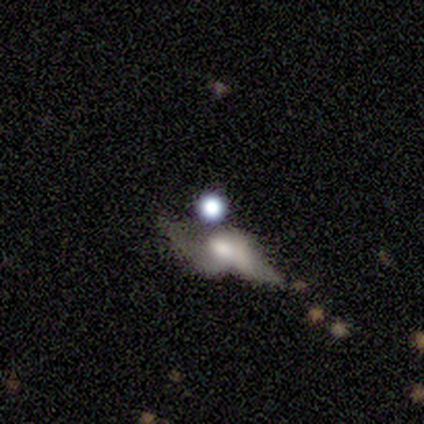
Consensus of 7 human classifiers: This is possibly a star or artifact rather than a galaxy (57%).